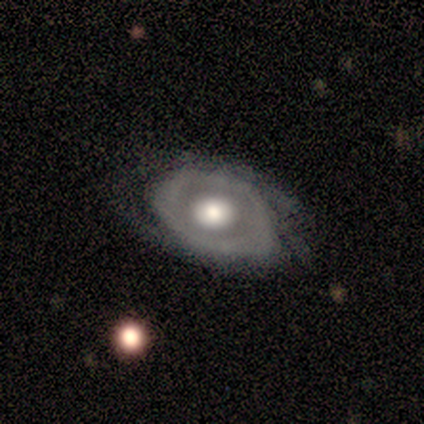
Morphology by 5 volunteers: Volunteers were most divided on "spiral winding" (3-way tie): tight: 33%, medium: 33%, loose: 33%. More confident: edge-on disk — no (100%); bar — no (100%); smooth or featured — featured or disk (80%); merging — none (80%); spiral arms — yes (75%); spiral arm count — can't tell (67%); bulge size — moderate (50%).